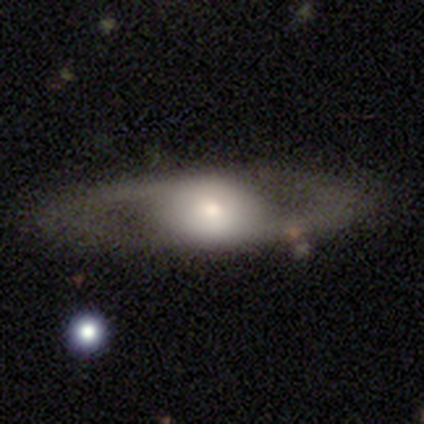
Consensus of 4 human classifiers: Smooth or featured: smooth — 50% (tied with featured or disk — 50%)
How rounded: in between — 100%
Merging: none — 50% (minor disturbance — 25%)